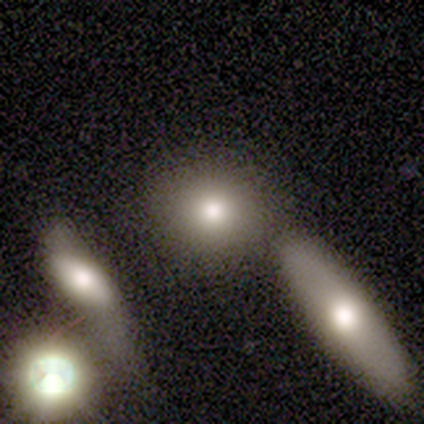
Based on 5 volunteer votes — A smooth galaxy with no disk features (100%) that is round (80%).

Vote fractions:
- Smooth or featured? smooth: 100% / featured or disk: 0% / star or artifact: 0%
- How rounded? round: 80% / in between: 20% / cigar-shaped: 0%
- Merging? none: 80% / merger: 20% / minor disturbance: 0% / major disturbance: 0%